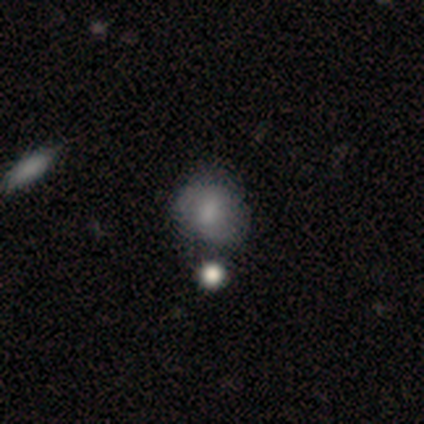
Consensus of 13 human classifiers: Morphology: type=smooth (46%, tied with featured or disk); roundness=round (67%); merging=none (42%).